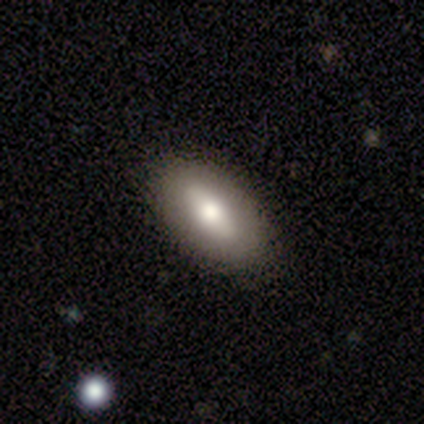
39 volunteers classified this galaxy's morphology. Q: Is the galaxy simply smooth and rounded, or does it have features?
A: smooth — 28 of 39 (72%).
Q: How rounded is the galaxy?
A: in between — 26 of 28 (93%).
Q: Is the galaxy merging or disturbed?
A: none — 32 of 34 (94%).